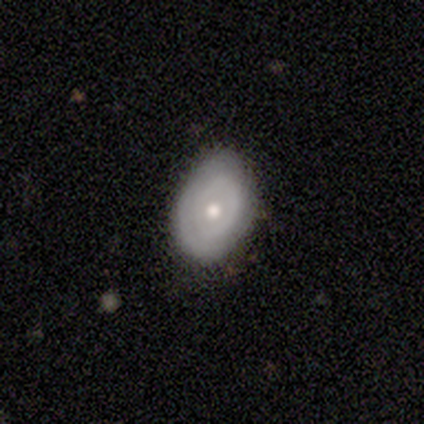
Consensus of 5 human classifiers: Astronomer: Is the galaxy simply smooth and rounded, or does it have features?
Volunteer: featured or disk — 60% (runner-up: smooth, 40%).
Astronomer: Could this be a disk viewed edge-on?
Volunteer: no — 100%.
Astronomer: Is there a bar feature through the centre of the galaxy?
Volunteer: no — 67%.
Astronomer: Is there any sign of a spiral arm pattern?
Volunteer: yes — 67%.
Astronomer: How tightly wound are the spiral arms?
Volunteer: tight — 100%.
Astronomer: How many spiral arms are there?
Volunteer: can't tell — 100%.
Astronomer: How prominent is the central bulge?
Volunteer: small — 67%.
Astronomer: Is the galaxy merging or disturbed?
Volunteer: none — 100%.